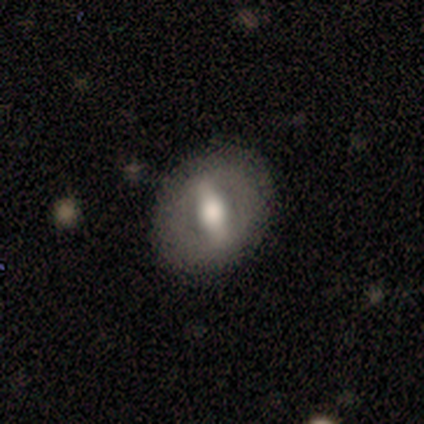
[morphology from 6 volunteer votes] smooth-or-featured: featured or disk: 83% | star or artifact: 17% | smooth: 0%
  disk-edge-on: no: 80% | yes: 20%
    bar: no: 50% | strong: 25% | weak: 25%
    has-spiral-arms: no: 100% | yes: 0%
    bulge-size: moderate: 75% | large: 25% | dominant: 0% | small: 0% | none: 0%
  merging: none: 100% | minor disturbance: 0% | major disturbance: 0% | merger: 0%